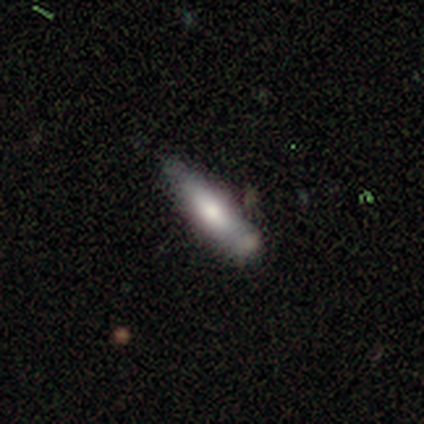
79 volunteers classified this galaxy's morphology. Smooth or featured? smooth (63%)
How rounded? cigar-shaped (70%)
Merging? none (23%)